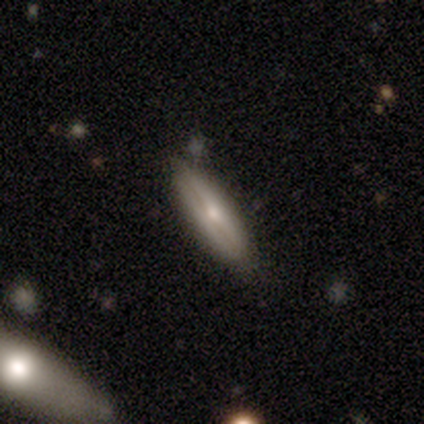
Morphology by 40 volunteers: featured or disk 50%, smooth 48%, star or artifact 2%. Down the decision tree: edge-on disk — yes (90%); edge-on bulge — rounded (67%); merging — none (79%).